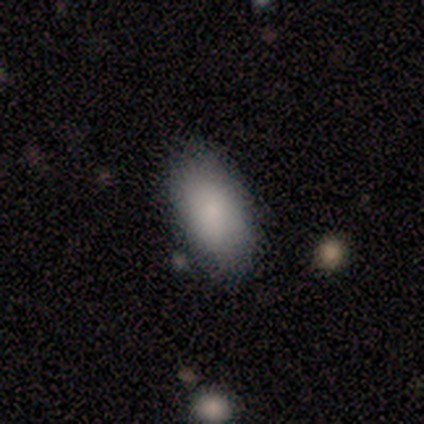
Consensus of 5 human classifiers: Morphology: type=smooth (100%); roundness=in between (80%); merging=none (40%).